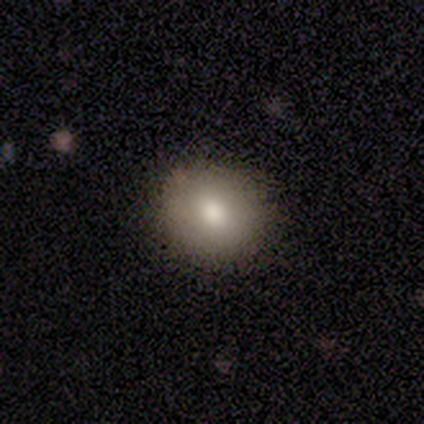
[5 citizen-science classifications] Smooth or featured: smooth — 100%
How rounded: round — 60% (in between — 40%)
Merging: none — 100%